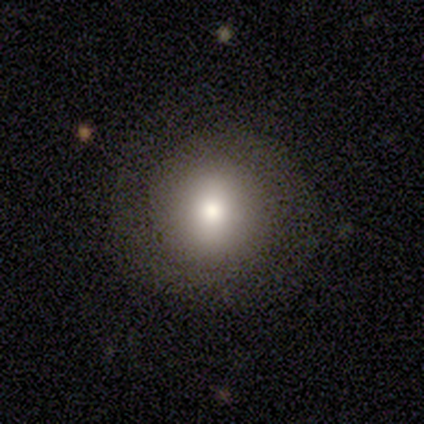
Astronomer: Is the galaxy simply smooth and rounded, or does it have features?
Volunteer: smooth — 67%.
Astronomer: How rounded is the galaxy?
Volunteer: round — 100%.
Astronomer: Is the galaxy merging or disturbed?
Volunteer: none — 93%.